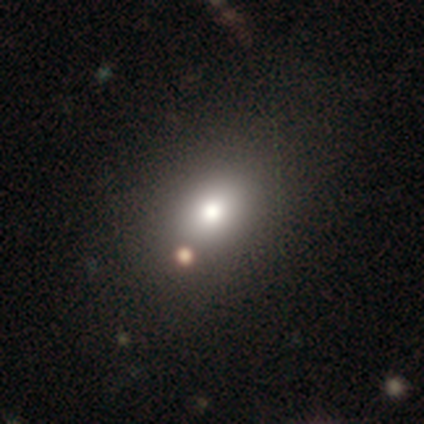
smooth_or_featured: star or artifact (p=0.50) [alt: smooth p=0.25]